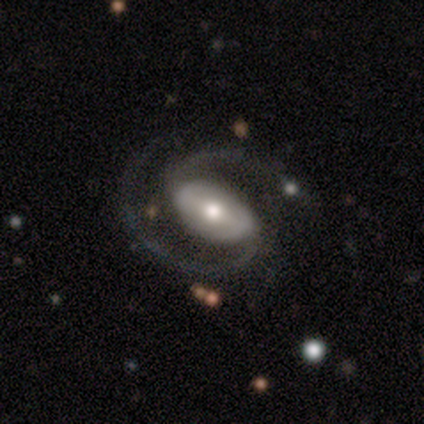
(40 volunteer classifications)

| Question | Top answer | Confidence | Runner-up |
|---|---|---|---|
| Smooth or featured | featured or disk | 98% | smooth (2%) |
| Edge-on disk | no | 100% | — |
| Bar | weak | 44% | strong (41%) |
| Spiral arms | yes | 100% | — |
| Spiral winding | medium | 69% | tight (15%) |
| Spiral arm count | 2 | 97% | 1 (3%) |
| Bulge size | moderate | 79% | large (13%) |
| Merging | none | 60% | minor disturbance (8%) |